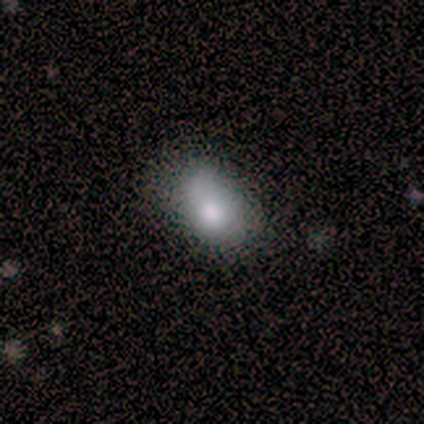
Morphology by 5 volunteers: smooth_or_featured: smooth (p=0.80) [alt: star or artifact p=0.20]
how_rounded: in between (p=0.75) [alt: round p=0.25]
merging: none (p=0.75) [alt: major disturbance p=0.25]